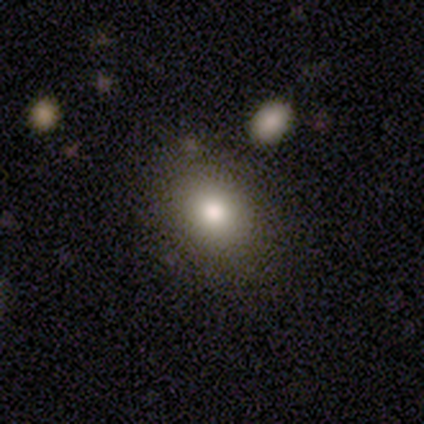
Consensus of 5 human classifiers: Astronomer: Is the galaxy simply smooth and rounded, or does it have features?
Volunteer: smooth — 60% (runner-up: featured or disk, 40%).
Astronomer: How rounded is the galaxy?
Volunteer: in between — 100%.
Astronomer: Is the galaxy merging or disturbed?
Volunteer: none — 80%.